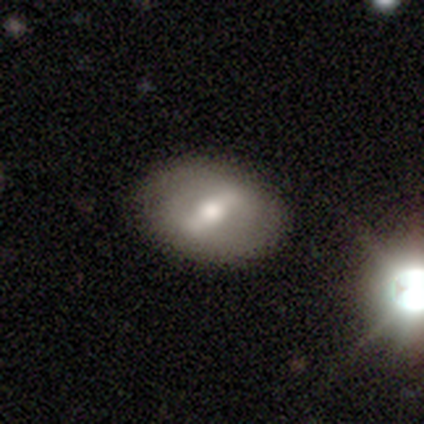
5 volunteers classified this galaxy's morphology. smooth-or-featured: smooth: 60% | featured or disk: 40% | star or artifact: 0%
  how-rounded: in between: 67% | round: 33% | cigar-shaped: 0%
  merging: none: 100% | minor disturbance: 0% | major disturbance: 0% | merger: 0%